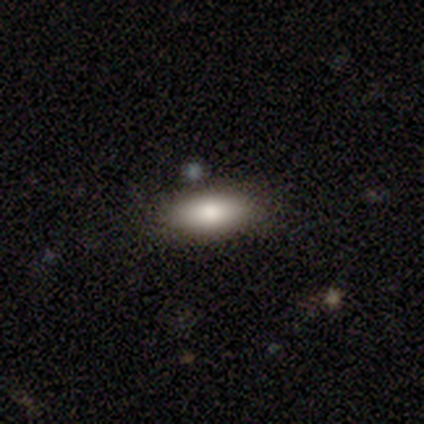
Morphology: type=smooth (89%); roundness=in between (86%); merging=none (50%).